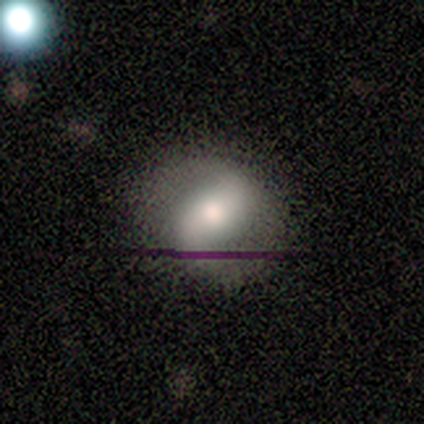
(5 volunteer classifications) Q: Smooth or featured?
A: featured or disk (80%); runner-up: smooth (20%)
Q: Edge-on disk?
A: no (100%)
Q: Bar?
A: strong (50%); runner-up: weak (25%)
Q: Spiral arms?
A: yes (100%)
Q: Spiral winding?
A: medium (75%); runner-up: loose (25%)
Q: Spiral arm count?
A: 2 (100%)
Q: Bulge size?
A: moderate (75%); runner-up: dominant (25%)
Q: Merging?
A: none (60%); runner-up: minor disturbance (20%)